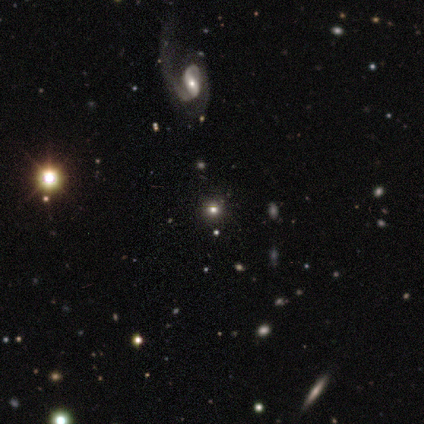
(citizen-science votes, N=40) smooth 45%, star or artifact 35%, featured or disk 20%. Down the decision tree: how rounded — round (89%); merging — none (65%).